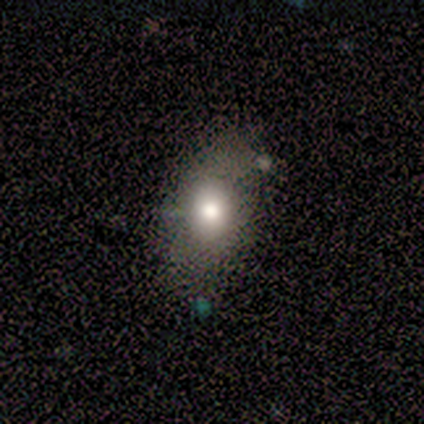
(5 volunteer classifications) Smooth or featured? 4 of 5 (80%) said smooth. How rounded? 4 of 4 (100%) said in between. Merging? 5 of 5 (100%) said none.